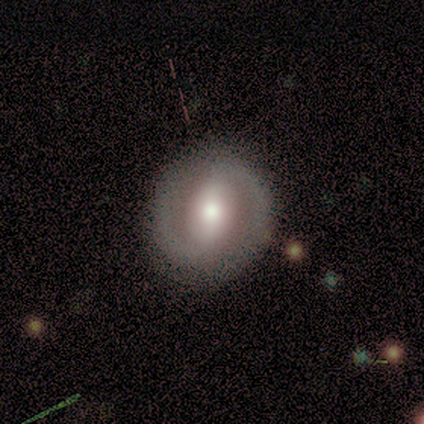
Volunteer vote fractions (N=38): smooth-or-featured: featured or disk: 68% | smooth: 29% | star or artifact: 3%
  disk-edge-on: no: 92% | yes: 8%
    bar: strong: 46% | weak: 38% | no: 17%
    has-spiral-arms: yes: 79% | no: 21%
      spiral-winding: medium: 42% | loose: 32% | tight: 26%
      spiral-arm-count: 2: 79% | can't tell: 16% | 1: 5% | 3: 0% | 4: 0% | more than 4: 0%
    bulge-size: moderate: 67% | large: 29% | small: 4% | dominant: 0% | none: 0%
  merging: none: 78% | minor disturbance: 19% | major disturbance: 3% | merger: 0%